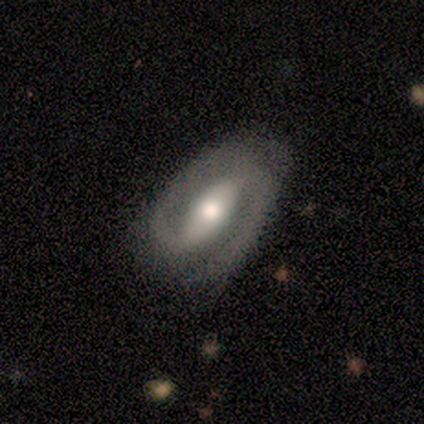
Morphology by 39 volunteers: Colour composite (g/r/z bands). It shows a featured or disk galaxy (85%) with a strong bar (55%), 2 (97%) medium (67%) spiral arms (97%) and a moderate central bulge (61%). Merging: none (68%).